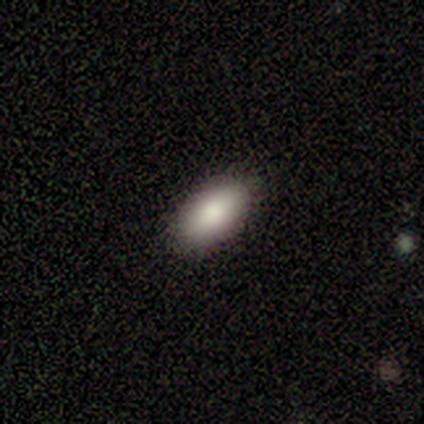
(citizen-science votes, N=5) Smooth or featured: smooth — 100%
How rounded: in between — 100%
Merging: none — 80% (major disturbance — 20%)